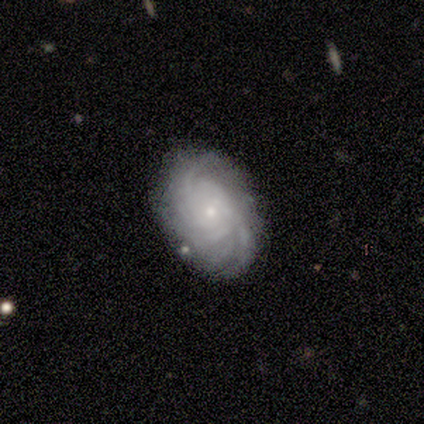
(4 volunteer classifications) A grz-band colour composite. It shows a featured or disk galaxy (100%) with no bar (100%), tight (100%) spiral arms (100%) and a small central bulge (75%). Merging: none (100%).